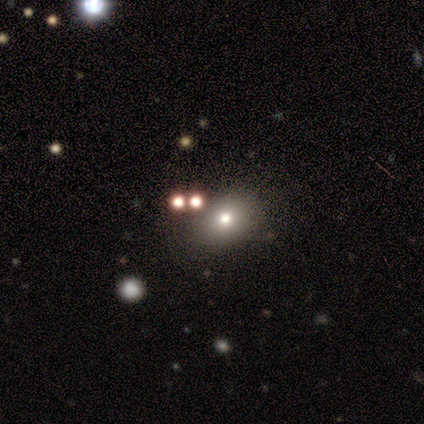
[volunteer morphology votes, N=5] This is likely a smooth galaxy (60%). How rounded: likely round (67%). Merging: clearly none (100%).